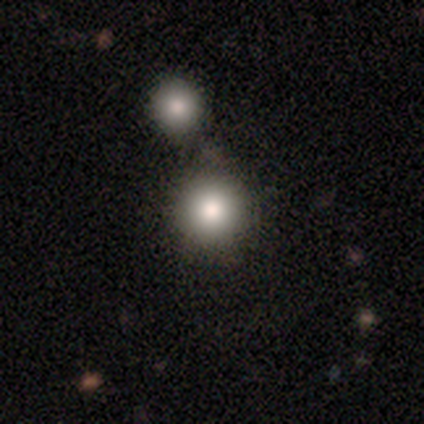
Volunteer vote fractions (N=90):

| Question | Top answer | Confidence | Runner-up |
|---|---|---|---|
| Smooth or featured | smooth | 81% | star or artifact (11%) |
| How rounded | round | 92% | in between (5%) |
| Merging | none | 65% | merger (28%) |